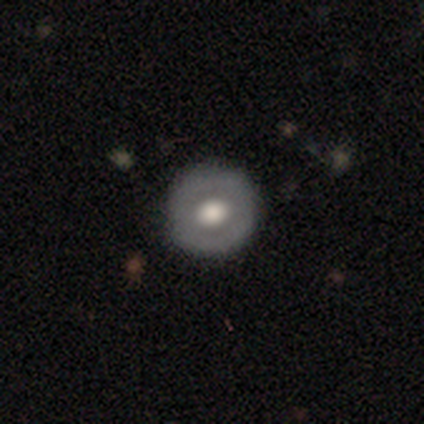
A smooth galaxy with no disk features (60%) that is round (100%).

Vote fractions:
- Smooth or featured? smooth: 60% / featured or disk: 40% / star or artifact: 0%
- How rounded? round: 100% / in between: 0% / cigar-shaped: 0%
- Merging? none: 80% / minor disturbance: 20% / major disturbance: 0% / merger: 0%